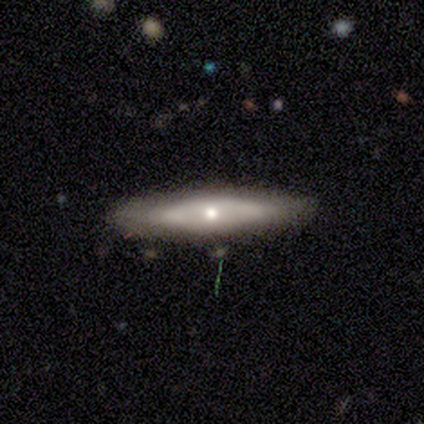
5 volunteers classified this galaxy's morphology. featured or disk 100%, smooth 0%, star or artifact 0%. Down the decision tree: edge-on disk — yes (80%); edge-on bulge — rounded (100%); merging — none (100%).